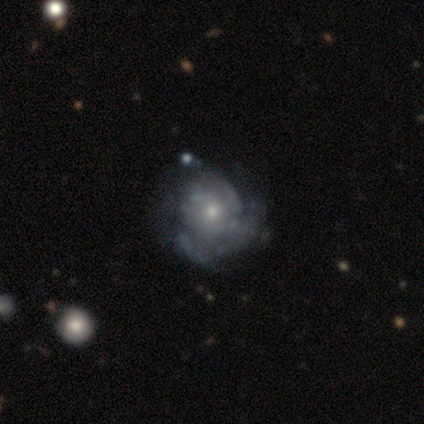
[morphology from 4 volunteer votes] Overall: featured or disk (75%). Edge-on disk: no (100%). Bar: no (100%). Spiral arms: no (67%; yes 33%). Bulge size: small (67%; moderate 33%). Merging: major disturbance (67%; none 33%).